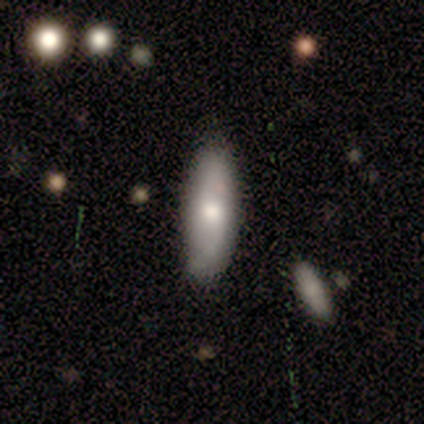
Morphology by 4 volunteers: Smooth or featured: smooth — 50% (featured or disk — 25%)
How rounded: round — 50% (tied with cigar-shaped — 50%)
Merging: none — 33% (tied with minor disturbance — 33%; merger — 33%)